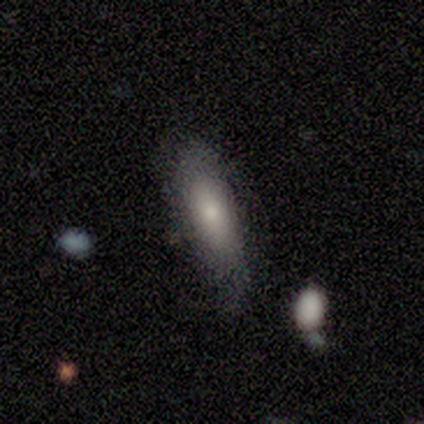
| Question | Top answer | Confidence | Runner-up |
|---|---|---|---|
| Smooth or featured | smooth | 40% | tied: featured or disk (40%) |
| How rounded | in between | 50% | tied: cigar-shaped (50%) |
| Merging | none | 100% | — |